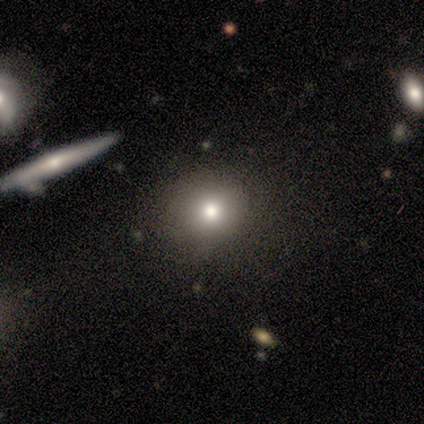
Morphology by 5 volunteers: A smooth galaxy with no disk features (40%, tied with star or artifact) that is round (100%).

Vote fractions:
- Smooth or featured? smooth: 40% (tied) / star or artifact: 40% (tied) / featured or disk: 20%
- How rounded? round: 100% / in between: 0% / cigar-shaped: 0%
- Merging? none: 67% / minor disturbance: 33% / major disturbance: 0% / merger: 0%